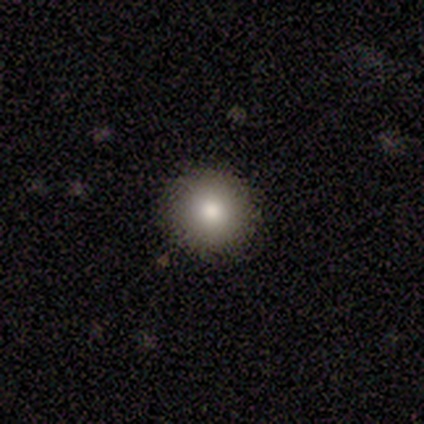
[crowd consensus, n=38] A smooth galaxy with no disk features (71%) that is round (89%). Merging: none (100%).